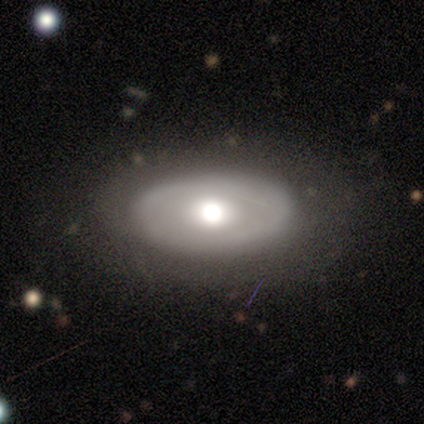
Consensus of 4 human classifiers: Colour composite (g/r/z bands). It shows a featured or disk galaxy (75%) with no bar (100%), no spiral arms (100%) and a moderate central bulge (67%). Merging: none (75%).